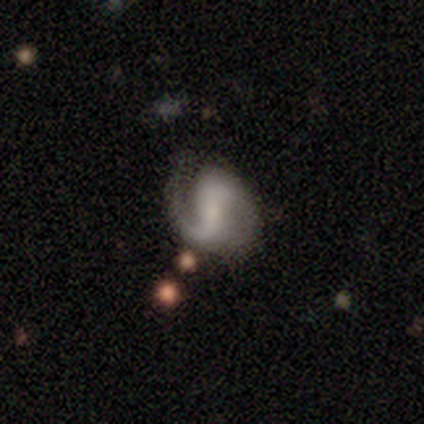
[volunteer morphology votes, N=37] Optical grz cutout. It shows a featured or disk galaxy (89%) with a weak bar (52%), 2 (84%) loose (47%) spiral arms (97%) and a small central bulge (48%). Merging: none (69%).